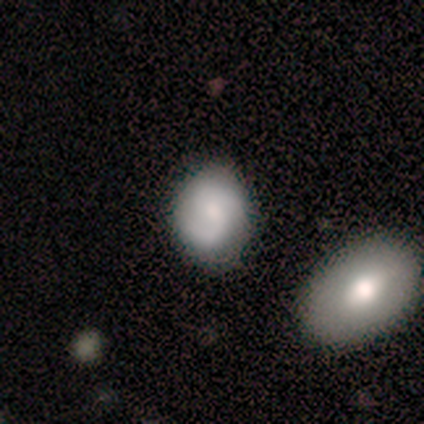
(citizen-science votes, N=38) smooth-or-featured: featured or disk: 63% | smooth: 29% | star or artifact: 8%
  disk-edge-on: no: 100% | yes: 0%
    bar: no: 58% | weak: 42% | strong: 0%
    has-spiral-arms: yes: 100% | no: 0%
      spiral-winding: medium: 54% | tight: 33% | loose: 12%
      spiral-arm-count: 2: 88% | 1: 4% | 3: 4% | can't tell: 4% | 4: 0% | more than 4: 0%
    bulge-size: small: 46% | moderate: 33% | none: 12% | large: 8% | dominant: 0%
  merging: none: 69% | minor disturbance: 29% | merger: 3% | major disturbance: 0%